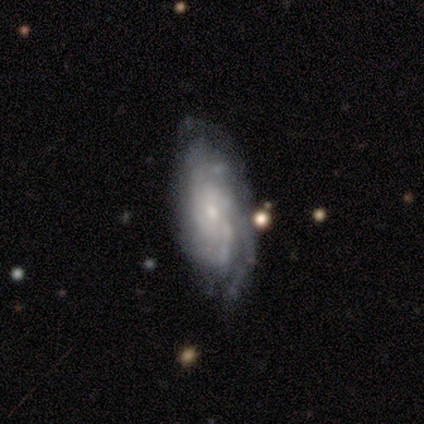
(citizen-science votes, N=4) This appears to be a featured or disk galaxy (75%) with no bar (67%), tight (50%, tied with loose) spiral arms (67%) and a small central bulge (67%). Merging: none (50%, tied with minor disturbance).